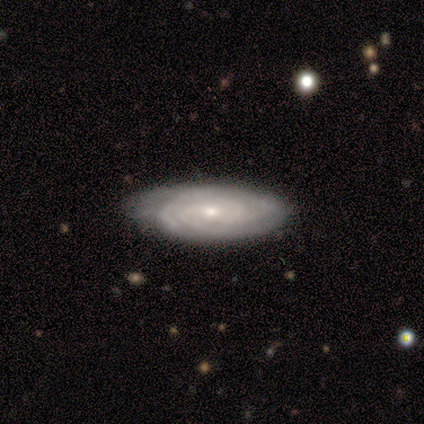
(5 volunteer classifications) Smooth or featured: featured or disk — 80% (smooth — 20%)
Edge-on disk: no — 100%
Bar: weak — 50% (strong — 25%)
Spiral arms: yes — 75% (no — 25%)
Spiral winding: tight — 100%
Spiral arm count: can't tell — 67% (2 — 33%)
Bulge size: moderate — 50% (tied with small — 50%)
Merging: minor disturbance — 80% (none — 20%)